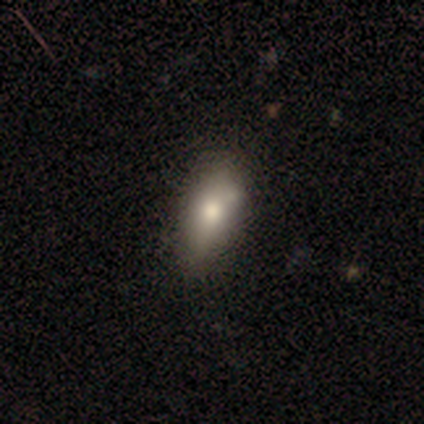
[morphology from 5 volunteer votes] A smooth galaxy with no disk features (100%) that is in between round and cigar-shaped (60%).

Vote fractions:
- Smooth or featured? smooth: 100% / featured or disk: 0% / star or artifact: 0%
- How rounded? in between: 60% / round: 20% / cigar-shaped: 20%
- Merging? none: 60% / minor disturbance: 40% / major disturbance: 0% / merger: 0%